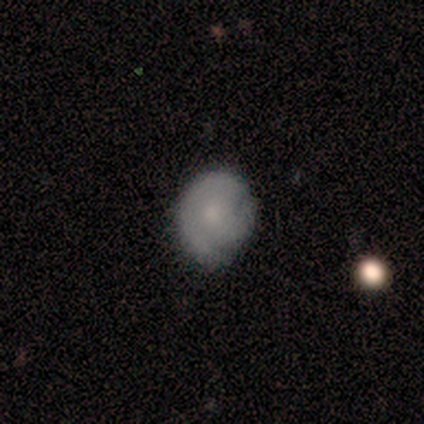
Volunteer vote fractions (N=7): Volunteers were most divided on "merging" (2-way tie): none: 50%, minor disturbance: 50%, major disturbance: 0%, merger: 0%. More confident: smooth or featured — smooth (71%); how rounded — in between (60%).